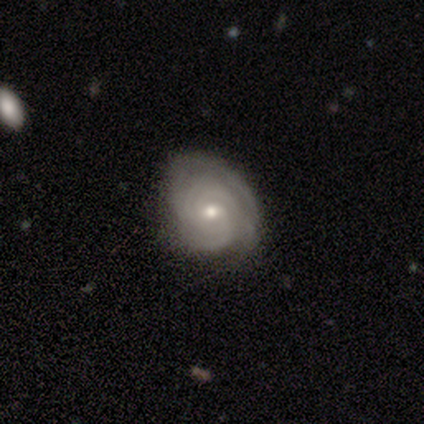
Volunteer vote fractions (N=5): This appears to be a featured or disk galaxy (80%) with no bar (75%), 3 (75%) tight (75%) spiral arms (100%) and a moderate central bulge (75%). Merging: none (75%).